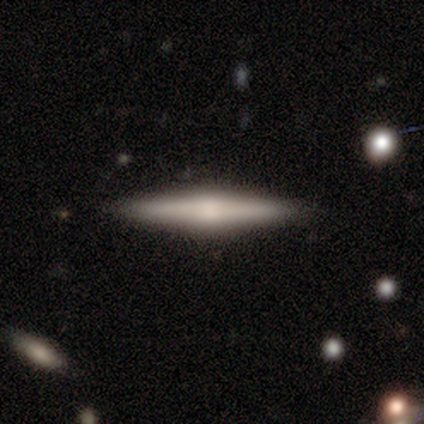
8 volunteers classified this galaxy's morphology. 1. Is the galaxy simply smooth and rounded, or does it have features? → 62% featured or disk, 38% smooth, 0% star or artifact.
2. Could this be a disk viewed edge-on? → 100% yes, 0% no.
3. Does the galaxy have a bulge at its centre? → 80% rounded, 20% none, 0% boxy.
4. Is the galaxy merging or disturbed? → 100% none, 0% minor disturbance, 0% major disturbance, 0% merger.